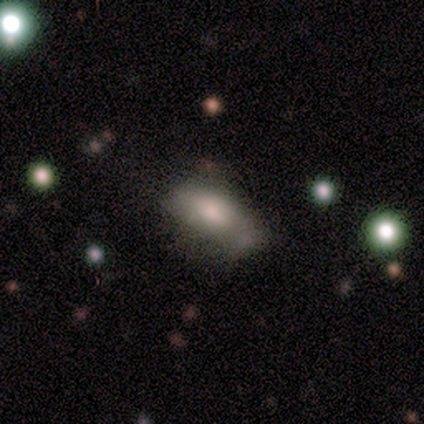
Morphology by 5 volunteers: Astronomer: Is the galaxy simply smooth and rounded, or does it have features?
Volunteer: featured or disk — 60%.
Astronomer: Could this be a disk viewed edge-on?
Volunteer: no — 100%.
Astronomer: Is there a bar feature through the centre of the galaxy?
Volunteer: no — 67%.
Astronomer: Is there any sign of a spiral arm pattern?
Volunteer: no — 100%.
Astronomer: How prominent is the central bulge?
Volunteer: moderate — 67%.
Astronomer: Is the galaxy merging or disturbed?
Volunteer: minor disturbance — 50%.